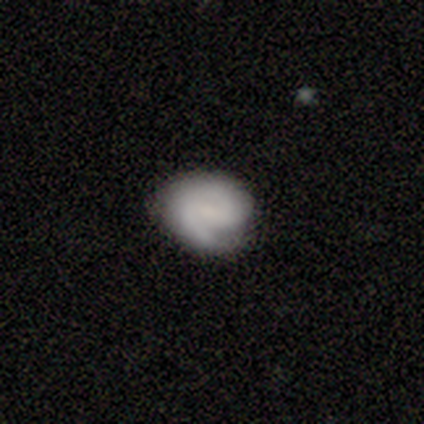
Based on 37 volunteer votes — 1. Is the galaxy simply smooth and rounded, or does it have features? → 65% featured or disk, 32% smooth, 3% star or artifact.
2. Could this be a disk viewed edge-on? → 100% no, 0% yes.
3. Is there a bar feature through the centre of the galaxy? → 54% no, 38% weak, 8% strong.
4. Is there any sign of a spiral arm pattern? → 96% yes, 4% no.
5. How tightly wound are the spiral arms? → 74% tight, 26% medium, 0% loose.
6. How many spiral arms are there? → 52% 1, 39% 2, 9% can't tell, 0% 3, 0% 4, 0% more than 4.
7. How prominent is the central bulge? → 62% none, 17% small, 12% moderate, 8% dominant, 0% large.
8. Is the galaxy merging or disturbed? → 58% none, 31% minor disturbance, 11% major disturbance, 0% merger.